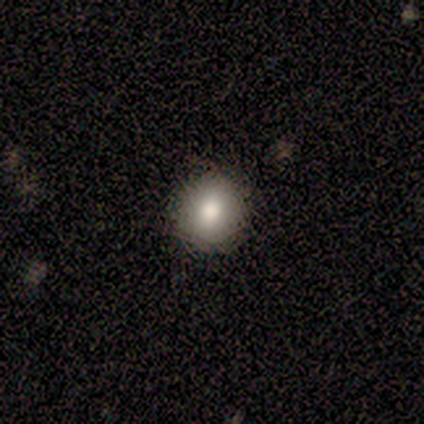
smooth 100%, featured or disk 0%, star or artifact 0%. Down the decision tree: how rounded — round (75%); merging — none (100%).